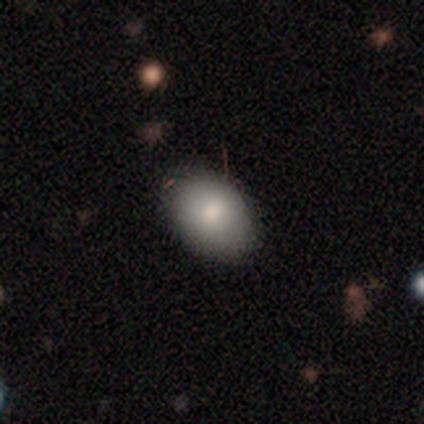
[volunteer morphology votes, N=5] Volunteers were most divided on "smooth or featured": smooth: 80%, featured or disk: 20%, star or artifact: 0%. More confident: how rounded — in between (100%); merging — none (80%).